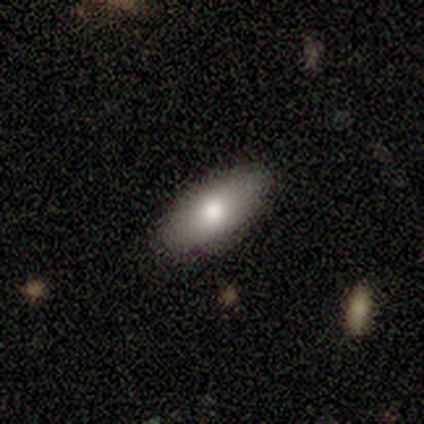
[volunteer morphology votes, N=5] This is clearly a smooth galaxy (80%). How rounded: clearly in between (100%). Merging: clearly none (100%).